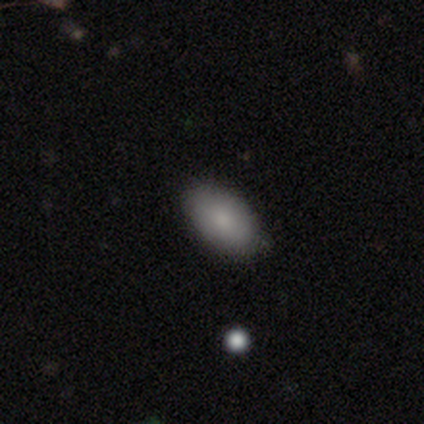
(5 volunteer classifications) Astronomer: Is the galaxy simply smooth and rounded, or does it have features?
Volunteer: smooth — 100%.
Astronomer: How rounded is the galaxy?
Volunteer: in between — 100%.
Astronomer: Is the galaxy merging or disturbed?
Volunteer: none — 60% (runner-up: minor disturbance, 40%).